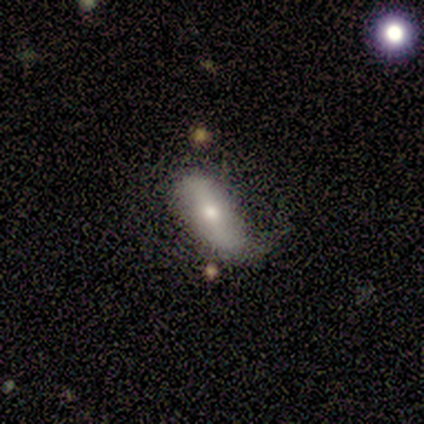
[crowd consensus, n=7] Q: Smooth or featured?
A: smooth (71%); runner-up: featured or disk (29%)
Q: How rounded?
A: in between (100%)
Q: Merging?
A: none (43%); tied with: minor disturbance (43%)